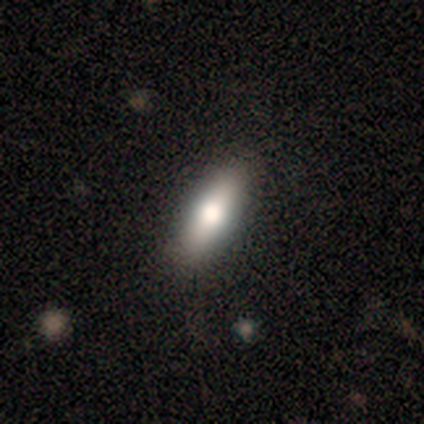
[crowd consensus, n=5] smooth 80%, featured or disk 20%, star or artifact 0%. Down the decision tree: how rounded — in between (50%, tied with cigar-shaped); merging — none (100%).